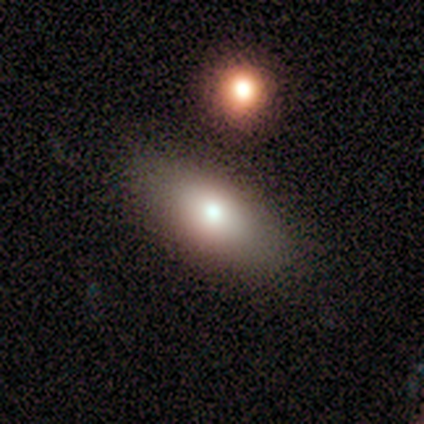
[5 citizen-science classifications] smooth-or-featured: smooth: 100% | featured or disk: 0% | star or artifact: 0%
  how-rounded: in between: 80% | cigar-shaped: 20% | round: 0%
  merging: none: 60% | major disturbance: 20% | merger: 20% | minor disturbance: 0%